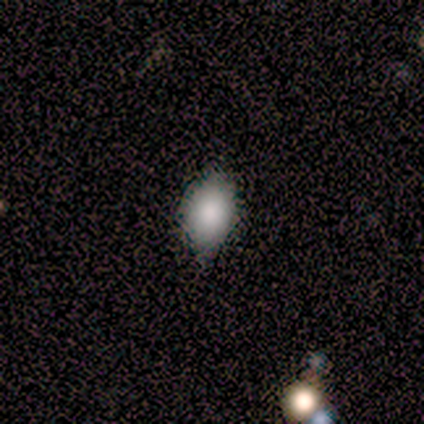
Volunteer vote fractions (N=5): Morphology: type=smooth (80%); roundness=in between (100%); merging=none (50%, tied with minor disturbance).